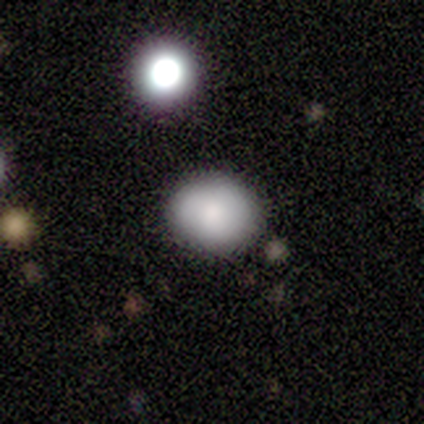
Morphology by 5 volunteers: smooth_or_featured: smooth (p=0.60) [alt: featured or disk p=0.40]
how_rounded: round (p=1.00)
merging: none (p=1.00)